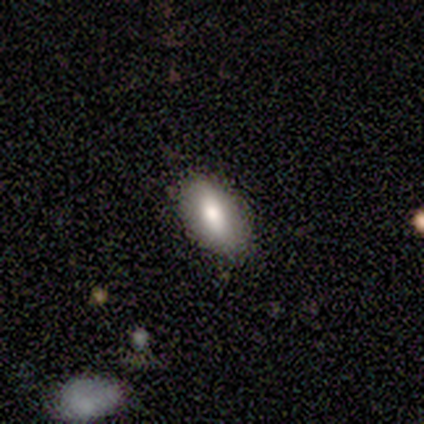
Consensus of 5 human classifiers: Volunteers were most divided on "smooth or featured": smooth: 60%, featured or disk: 20%, star or artifact: 20%. More confident: how rounded — in between (100%); merging — none (75%).